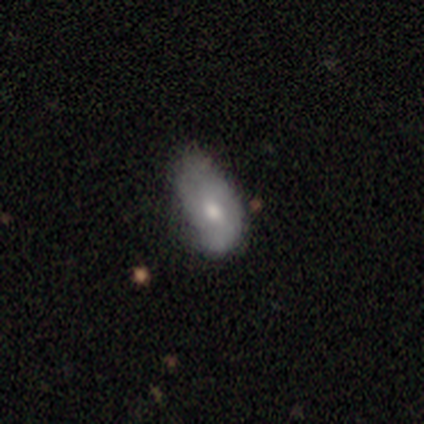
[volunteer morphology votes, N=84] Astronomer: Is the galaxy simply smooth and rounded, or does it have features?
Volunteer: smooth — 55% (runner-up: featured or disk, 39%).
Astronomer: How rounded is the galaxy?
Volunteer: in between — 91%.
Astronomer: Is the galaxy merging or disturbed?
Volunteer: minor disturbance — 54% (runner-up: none, 30%).